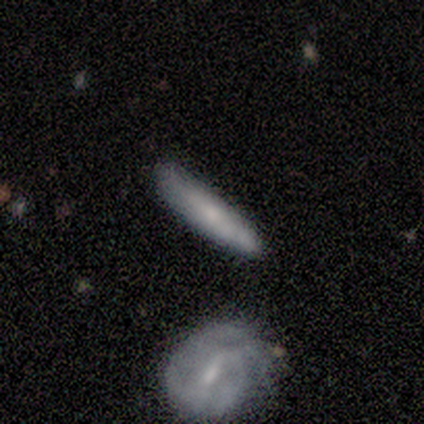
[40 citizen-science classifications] A smooth galaxy with no disk features (52%) that is cigar-shaped (81%). Merging: none (78%).